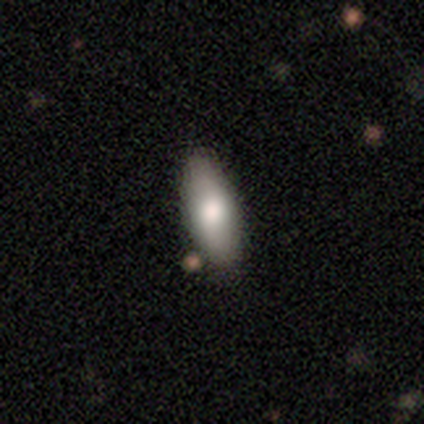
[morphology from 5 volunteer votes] Smooth or featured: smooth — 80% (star or artifact — 20%)
How rounded: in between — 100%
Merging: none — 100%